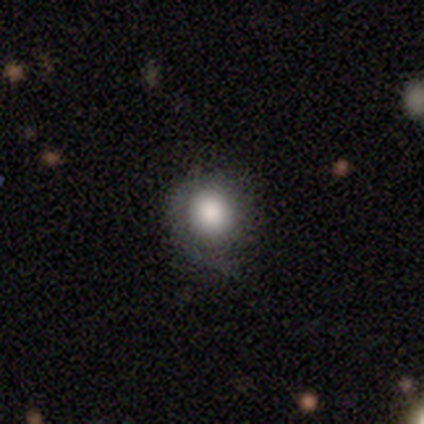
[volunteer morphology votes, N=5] type=smooth (80%); roundness=round (50%, tied with in between); merging=minor disturbance (100%).